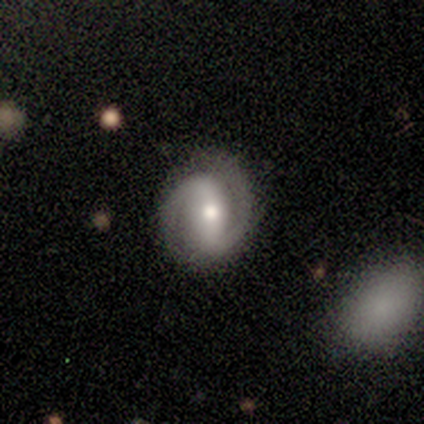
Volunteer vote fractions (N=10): A featured or disk galaxy (100%) with a strong bar (60%), 2 (90%) tight (60%) spiral arms (100%) and a moderate central bulge (80%). Merging: none (80%).